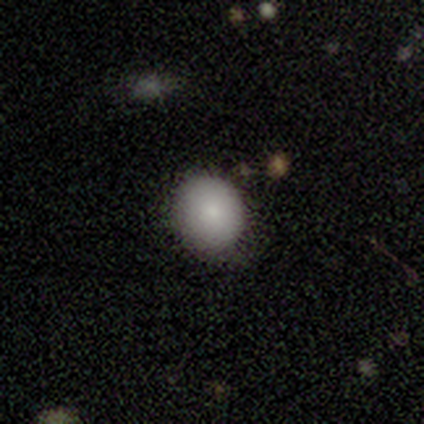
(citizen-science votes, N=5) Overall: smooth (60%; featured or disk 20%). How rounded: round (67%; in between 33%). Merging: none (100%).